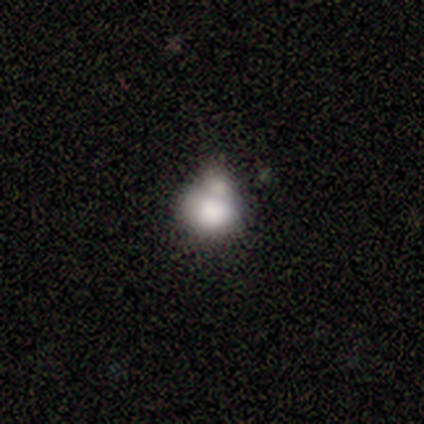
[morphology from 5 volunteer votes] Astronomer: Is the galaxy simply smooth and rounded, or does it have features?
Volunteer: smooth — 80%.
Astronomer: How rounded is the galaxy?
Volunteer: round — 50%, tied with in between at 50%.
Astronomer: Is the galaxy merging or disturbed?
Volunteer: none — 50%.